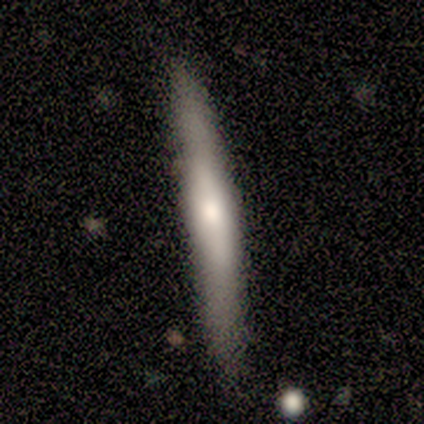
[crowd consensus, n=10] Smooth or featured? smooth (60%)
How rounded? cigar-shaped (100%)
Merging? none (80%)